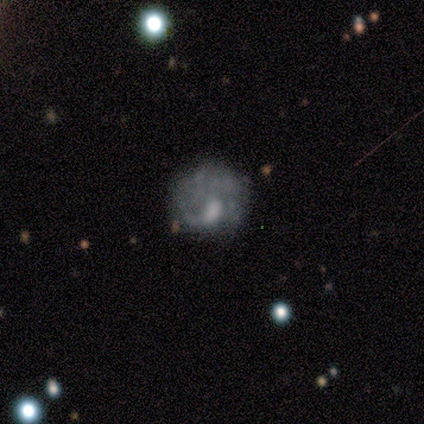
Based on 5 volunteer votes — Overall: featured or disk (80%). Edge-on disk: no (100%). Bar: no (75%). Spiral arms: no (75%). Bulge size: moderate (75%). Merging: none (100%).